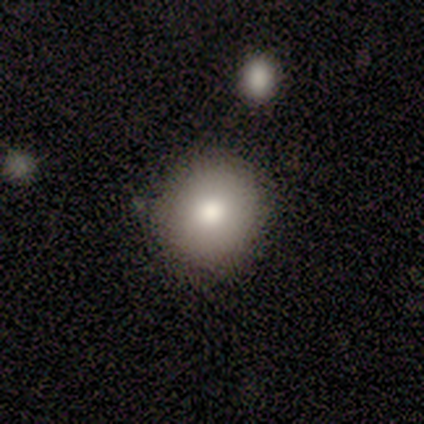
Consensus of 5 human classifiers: Smooth or featured? 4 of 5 (80%) said smooth. How rounded? 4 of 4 (100%) said round. Merging? 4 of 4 (100%) said none.